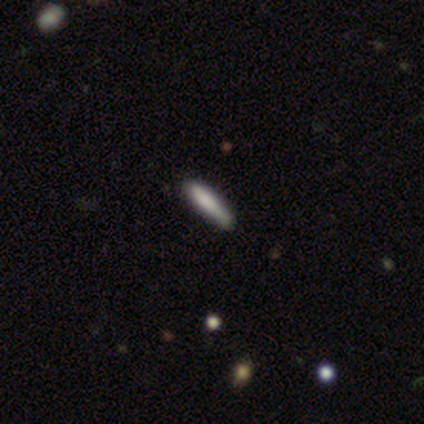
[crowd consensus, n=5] Smooth or featured: featured or disk — 60% (smooth — 40%)
Edge-on disk: yes — 100%
Edge-on bulge: boxy — 33% (tied with none — 33%; rounded — 33%)
Merging: minor disturbance — 80% (none — 20%)